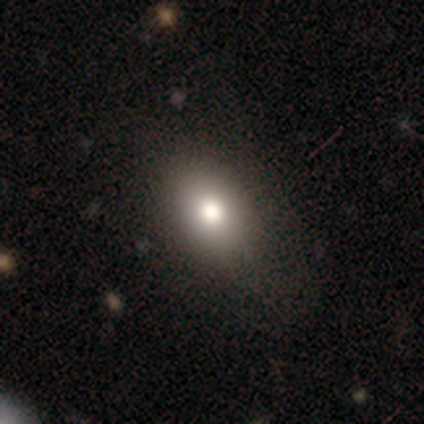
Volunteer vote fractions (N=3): Smooth or featured? smooth (67%)
How rounded? in between (100%)
Merging? none (50%, tied with minor disturbance)